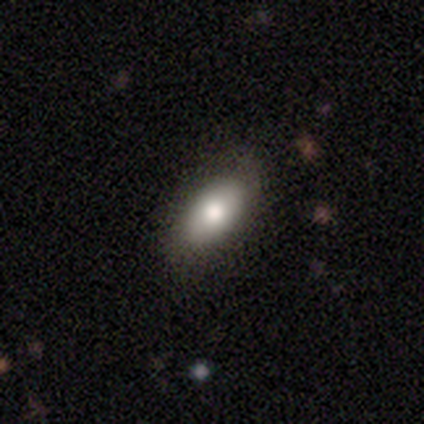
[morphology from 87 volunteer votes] Q: Smooth or featured?
A: smooth (71%); runner-up: featured or disk (15%)
Q: How rounded?
A: in between (94%); runner-up: round (3%)
Q: Merging?
A: none (79%); runner-up: minor disturbance (17%)